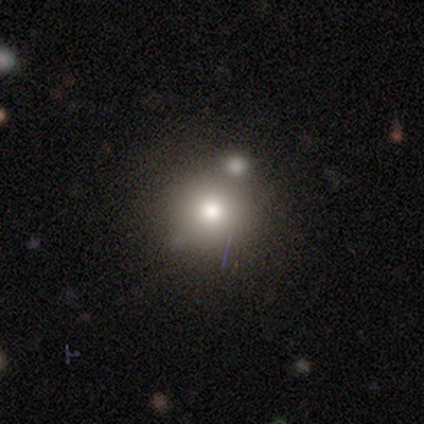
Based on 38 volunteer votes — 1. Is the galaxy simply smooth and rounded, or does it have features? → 76% smooth, 16% star or artifact, 8% featured or disk.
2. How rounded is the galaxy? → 97% round, 3% in between, 0% cigar-shaped.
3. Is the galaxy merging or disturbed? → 50% none, 25% merger, 6% minor disturbance, 0% major disturbance.